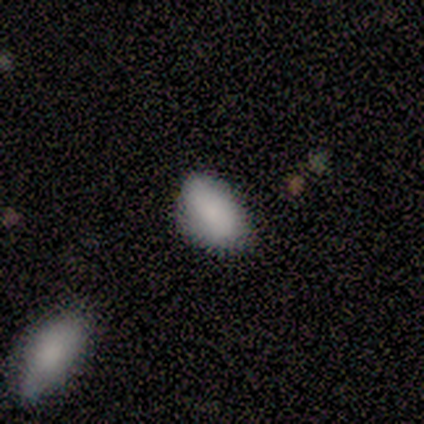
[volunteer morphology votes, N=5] type=smooth (100%); roundness=in between (100%); merging=none (100%).